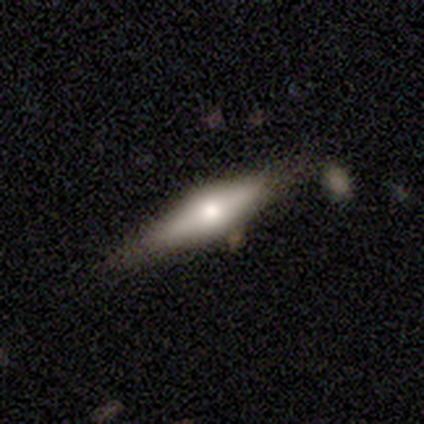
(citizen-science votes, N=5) This is clearly a featured or disk galaxy (80%). It is clearly viewed edge-on (100%). Edge-on bulge: clearly rounded (100%). Merging: clearly none (100%).